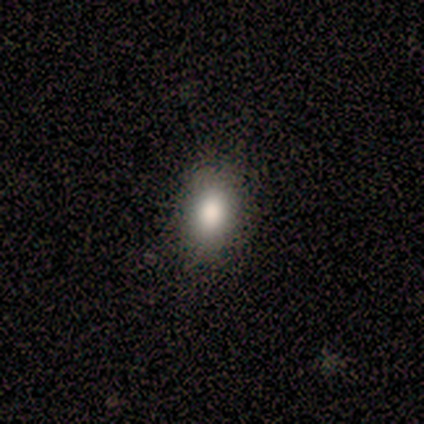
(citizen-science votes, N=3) Morphology: type=smooth (100%); roundness=in between (67%); merging=none (67%).